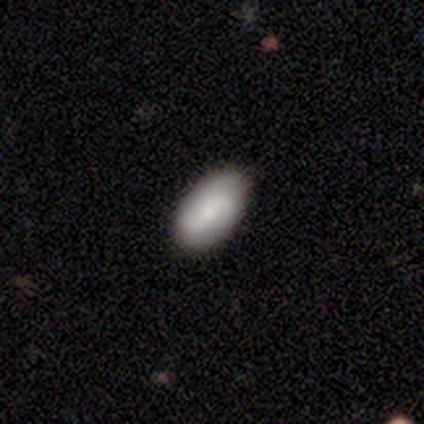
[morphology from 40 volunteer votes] type=smooth (68%); roundness=in between (96%); merging=none (86%).